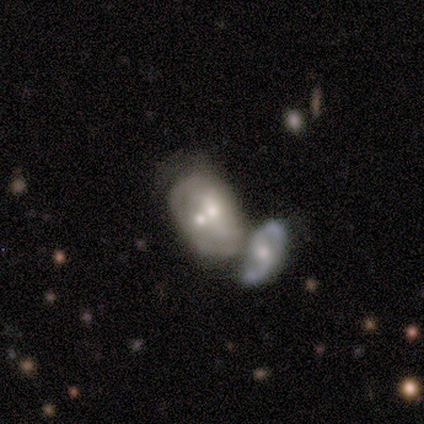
Overall: featured or disk (100%). Edge-on disk: no (100%). Bar: no (75%). Spiral arms: yes (100%). Spiral arm count: 2 (50%; 1 25%). Spiral winding: tight (75%). Bulge size: moderate (100%). Merging: minor disturbance (50%, tied with merger).